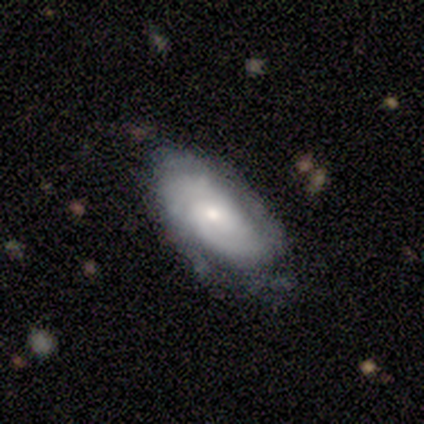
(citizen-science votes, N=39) Smooth or featured? featured or disk (74%)
Edge-on disk? no (97%)
Bar? no (82%)
Spiral arms? yes (89%)
Spiral winding? tight (76%)
Spiral arm count? can't tell (56%)
Bulge size? small (75%)
Merging? none (62%)